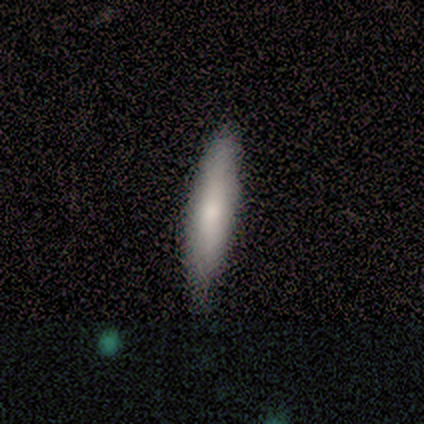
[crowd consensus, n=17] smooth_or_featured: smooth (p=0.94) [alt: featured or disk p=0.06]
how_rounded: cigar-shaped (p=0.88) [alt: in between p=0.12]
merging: none (p=0.88) [alt: minor disturbance p=0.12]